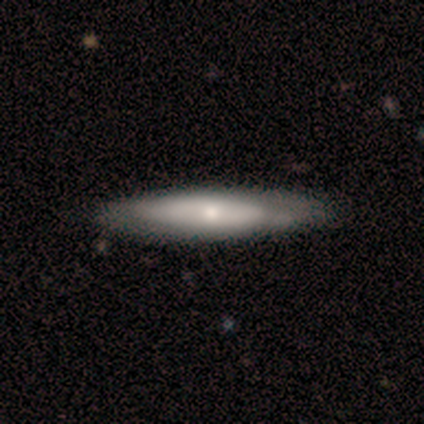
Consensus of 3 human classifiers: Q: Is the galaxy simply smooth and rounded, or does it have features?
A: smooth — 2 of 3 (67%).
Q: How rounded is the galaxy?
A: in between — 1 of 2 (50%, tied with cigar-shaped).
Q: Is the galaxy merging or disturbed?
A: none — 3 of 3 (100%).